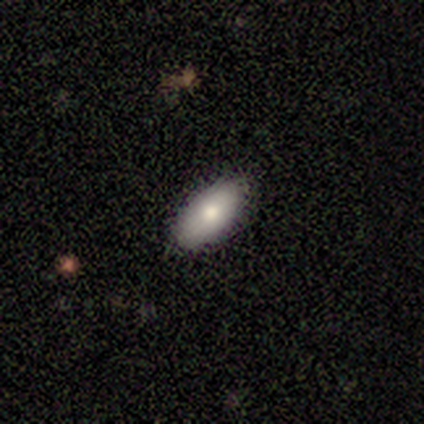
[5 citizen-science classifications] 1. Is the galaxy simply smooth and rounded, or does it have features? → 100% smooth, 0% featured or disk, 0% star or artifact.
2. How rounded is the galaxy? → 100% in between, 0% round, 0% cigar-shaped.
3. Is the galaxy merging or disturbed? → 100% none, 0% minor disturbance, 0% major disturbance, 0% merger.